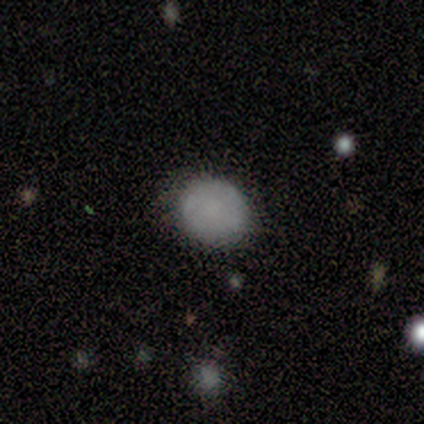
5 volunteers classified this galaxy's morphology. smooth-or-featured: smooth: 80% | star or artifact: 20% | featured or disk: 0%
  how-rounded: round: 100% | in between: 0% | cigar-shaped: 0%
  merging: none: 100% | minor disturbance: 0% | major disturbance: 0% | merger: 0%